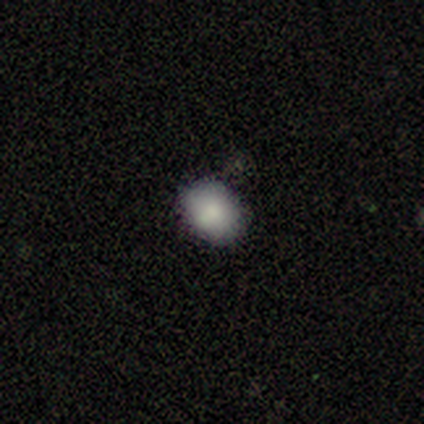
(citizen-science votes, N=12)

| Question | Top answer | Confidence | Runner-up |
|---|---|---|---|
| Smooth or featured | smooth | 92% | featured or disk (8%) |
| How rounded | in between | 91% | round (9%) |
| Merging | none | 75% | minor disturbance (25%) |